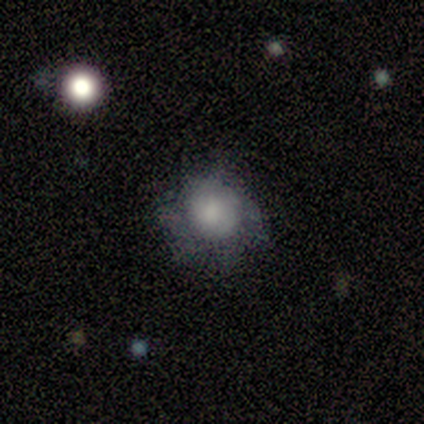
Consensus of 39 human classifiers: Morphology: type=smooth (56%); roundness=round (95%); merging=none (58%).